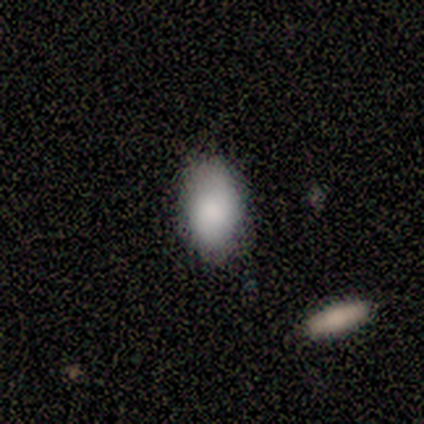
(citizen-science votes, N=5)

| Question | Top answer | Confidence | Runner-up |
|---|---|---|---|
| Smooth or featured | smooth | 100% | — |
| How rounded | in between | 100% | — |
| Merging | none | 80% | minor disturbance (20%) |